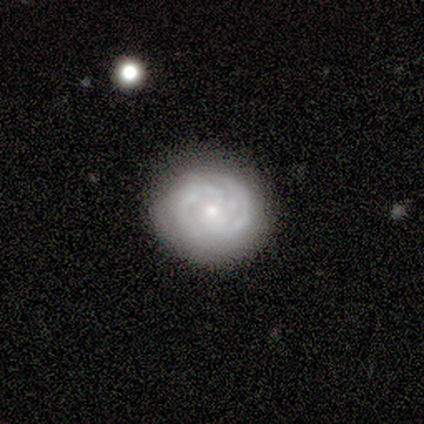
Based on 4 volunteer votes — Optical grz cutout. It shows a featured or disk galaxy (75%) with no bar (100%), 2 (50%, tied with can't tell) tight (100%) spiral arms (67%) and a small central bulge (67%). Merging: none (75%).